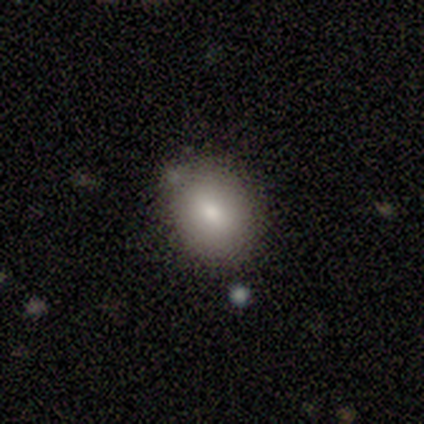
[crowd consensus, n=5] smooth_or_featured: smooth (p=0.80) [alt: star or artifact p=0.20]
how_rounded: round (p=0.50) [tied with: in between p=0.50]
merging: none (p=0.75) [alt: merger p=0.25]